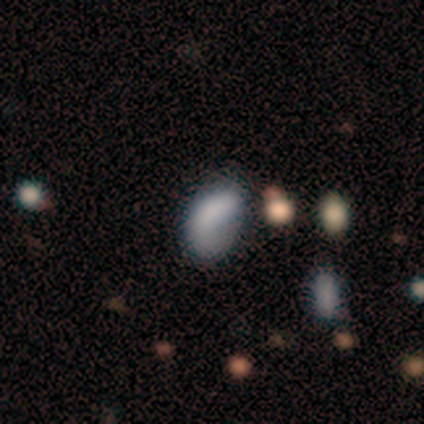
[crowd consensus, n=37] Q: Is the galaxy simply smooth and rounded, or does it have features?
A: smooth — 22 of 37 (59%).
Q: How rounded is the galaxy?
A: in between — 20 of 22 (91%).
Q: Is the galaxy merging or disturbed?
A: minor disturbance — 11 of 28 (39%).